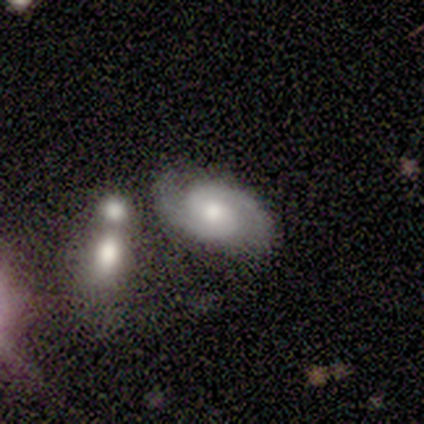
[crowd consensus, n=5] A featured or disk galaxy (80%) with a weak bar (50%, tied with no), 2 (100%) medium (75%) spiral arms (100%) and a moderate central bulge (75%).

Vote fractions:
- Smooth or featured? featured or disk: 80% / smooth: 20% / star or artifact: 0%
- Edge-on disk? no: 100% / yes: 0%
- Bar? weak: 50% (tied) / no: 50% (tied) / strong: 0%
- Spiral arms? yes: 100% / no: 0%
- Spiral winding? medium: 75% / tight: 25% / loose: 0%
- Spiral arm count? 2: 100% / 1: 0% / 3: 0% / 4: 0% / more than 4: 0% / can't tell: 0%
- Bulge size? moderate: 75% / small: 25% / dominant: 0% / large: 0% / none: 0%
- Merging? none: 80% / merger: 20% / minor disturbance: 0% / major disturbance: 0%